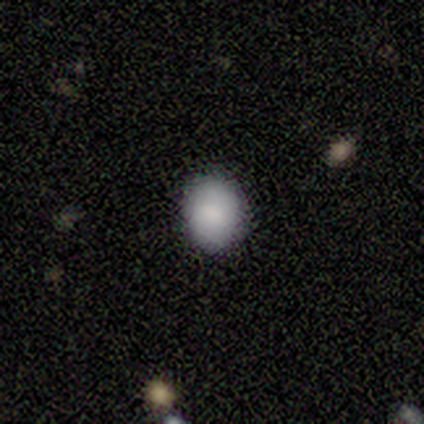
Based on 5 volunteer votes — Volunteers were most divided on "merging": none: 80%, minor disturbance: 20%, major disturbance: 0%, merger: 0%. More confident: smooth or featured — smooth (100%); how rounded — round (100%).